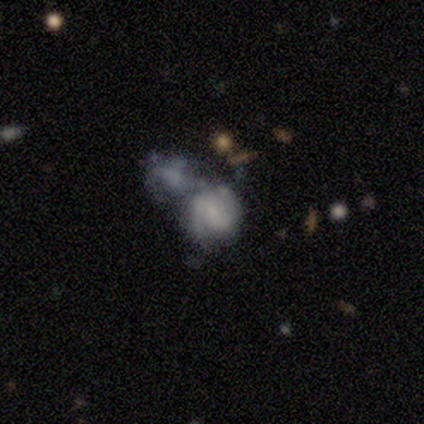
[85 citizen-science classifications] Smooth or featured? 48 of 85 (56%) said featured or disk. Edge-on disk? 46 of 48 (96%) said no. Bar? 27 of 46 (59%) said no. Spiral arms? 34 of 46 (74%) said yes. Spiral winding? 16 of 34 (47%) said medium. Spiral arm count? 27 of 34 (79%) said 2. Bulge size? 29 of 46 (63%) said small. Merging? 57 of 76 (75%) said merger.